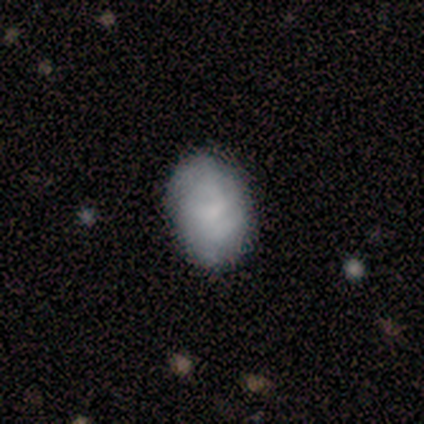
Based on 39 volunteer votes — smooth_or_featured: smooth (p=0.67) [alt: featured or disk p=0.28]
how_rounded: in between (p=0.73) [alt: round p=0.27]
merging: none (p=0.62) [alt: minor disturbance p=0.30]